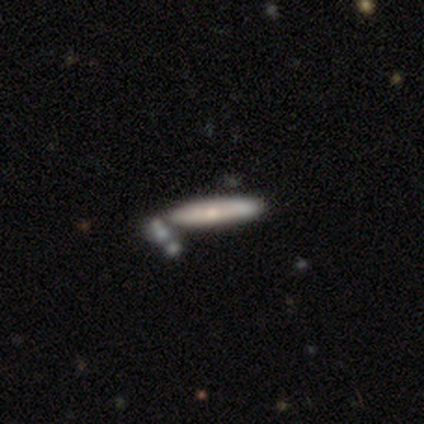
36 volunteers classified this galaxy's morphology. Smooth or featured? 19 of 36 (53%) said smooth. How rounded? 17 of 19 (89%) said cigar-shaped. Merging? 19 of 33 (58%) said none.